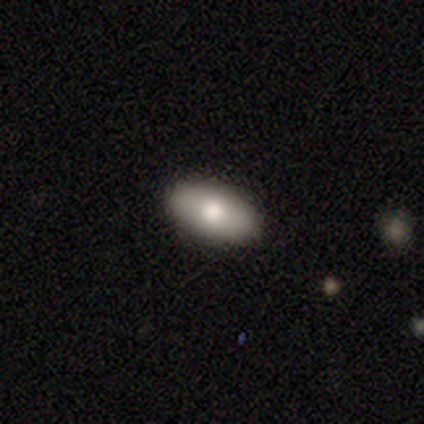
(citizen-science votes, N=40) Smooth or featured? 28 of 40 (70%) said smooth. How rounded? 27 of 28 (96%) said in between. Merging? 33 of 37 (89%) said none.